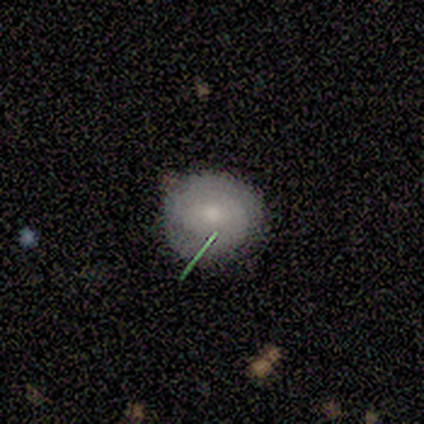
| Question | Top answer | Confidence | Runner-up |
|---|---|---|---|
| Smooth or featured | smooth | 100% | — |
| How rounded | round | 100% | — |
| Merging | none | 80% | merger (20%) |